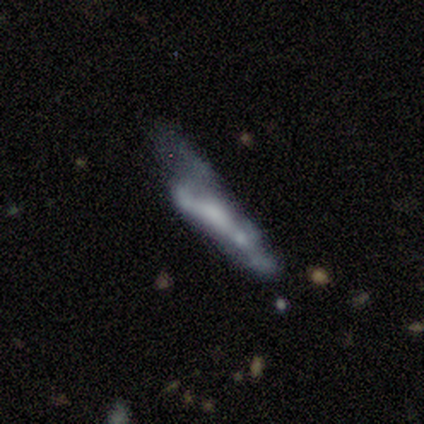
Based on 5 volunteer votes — This is clearly a featured or disk galaxy (100%). It is clearly not viewed edge-on (80%). Bar: likely no (75%). Spiral arm pattern: clearly no (100%). Central bulge: likely none (75%). Merging: likely major disturbance (60%).